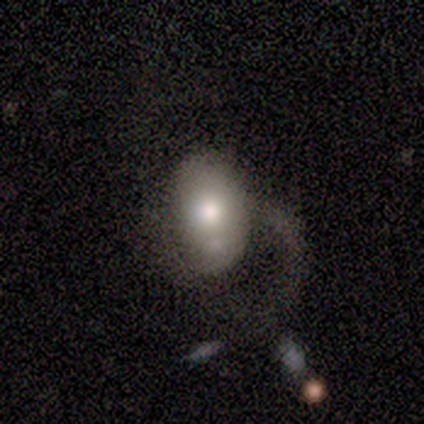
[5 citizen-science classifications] Morphology: type=featured or disk (60%); edge-on=no (100%); bar=no (67%); spiral arms=no (67%); bulge=moderate (67%); merging=none (40%, tied with major disturbance).